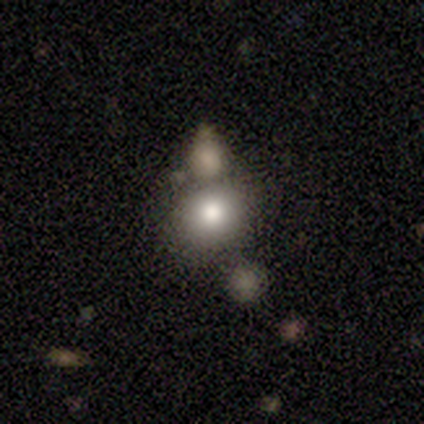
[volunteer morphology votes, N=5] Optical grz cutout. It shows a smooth galaxy with no disk features (80%) that is round (75%). Merging: none (75%).